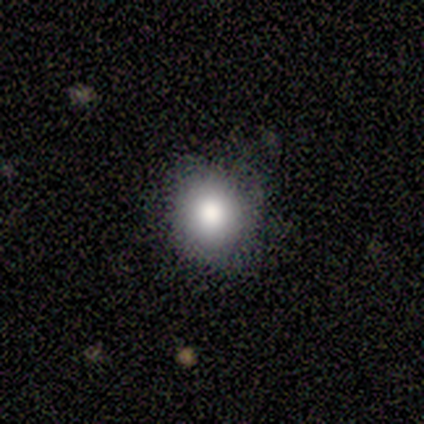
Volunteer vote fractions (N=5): Smooth or featured: smooth — 100%
How rounded: round — 100%
Merging: none — 80% (major disturbance — 20%)